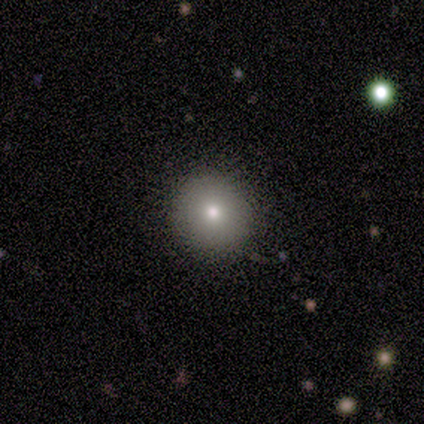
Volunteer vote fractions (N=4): smooth_or_featured: smooth (p=0.75) [alt: star or artifact p=0.25]
how_rounded: round (p=1.00)
merging: none (p=1.00)